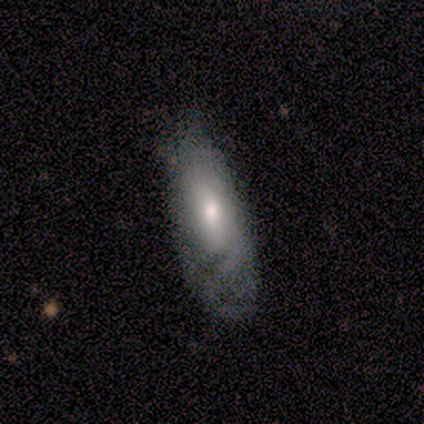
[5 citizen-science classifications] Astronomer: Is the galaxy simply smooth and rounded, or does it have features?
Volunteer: smooth — 80%.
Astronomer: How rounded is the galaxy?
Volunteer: in between — 100%.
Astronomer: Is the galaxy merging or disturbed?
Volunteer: minor disturbance — 40%, tied with major disturbance at 40%.